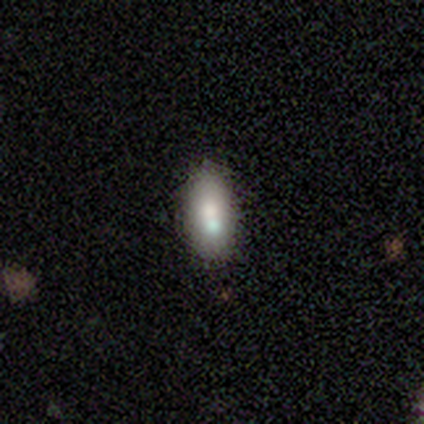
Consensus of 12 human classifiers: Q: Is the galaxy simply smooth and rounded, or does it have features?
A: smooth — 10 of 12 (83%).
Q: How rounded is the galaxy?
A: in between — 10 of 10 (100%).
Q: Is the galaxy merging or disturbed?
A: none — 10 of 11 (91%).